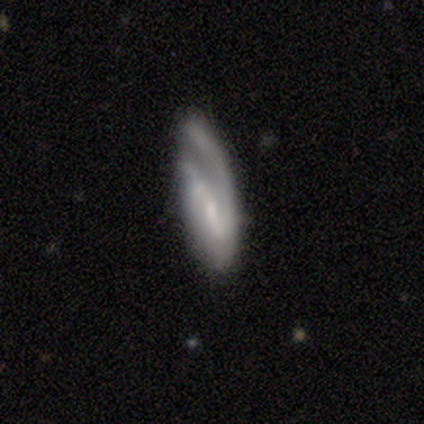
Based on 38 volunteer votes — Smooth or featured: featured or disk — 76% (smooth — 18%)
Edge-on disk: no — 90% (yes — 10%)
Bar: weak — 62% (strong — 19%)
Spiral arms: yes — 96% (no — 4%)
Spiral winding: medium — 48% (loose — 36%)
Spiral arm count: 2 — 56% (1 — 24%)
Bulge size: small — 69% (moderate — 23%)
Merging: none — 56% (major disturbance — 28%)